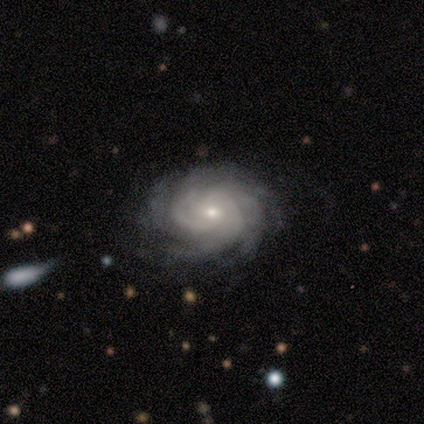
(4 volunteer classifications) featured or disk 100%, smooth 0%, star or artifact 0%. Down the decision tree: edge-on disk — no (100%); bar — weak (50%, tied with no); spiral arms — yes (100%); spiral arm count — more than 4 (50%); spiral winding — tight (75%); bulge size — moderate (50%, tied with small); merging — none (100%).